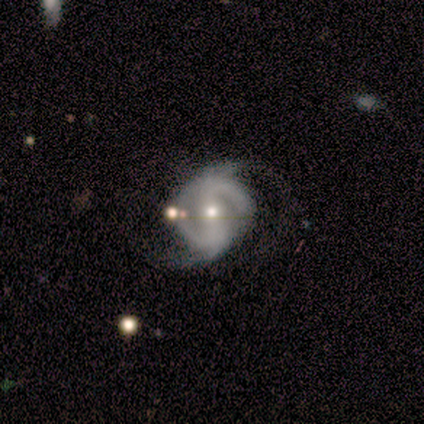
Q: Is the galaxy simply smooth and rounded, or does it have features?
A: featured or disk — 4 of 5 (80%).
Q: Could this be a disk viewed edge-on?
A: no — 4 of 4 (100%).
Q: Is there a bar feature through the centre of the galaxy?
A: strong — 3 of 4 (75%).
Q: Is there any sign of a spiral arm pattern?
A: yes — 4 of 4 (100%).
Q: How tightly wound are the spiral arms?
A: tight — 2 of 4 (50%).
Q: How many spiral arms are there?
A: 2 — 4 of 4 (100%).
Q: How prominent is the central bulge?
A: moderate — 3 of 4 (75%).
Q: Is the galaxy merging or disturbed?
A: none — 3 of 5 (60%).